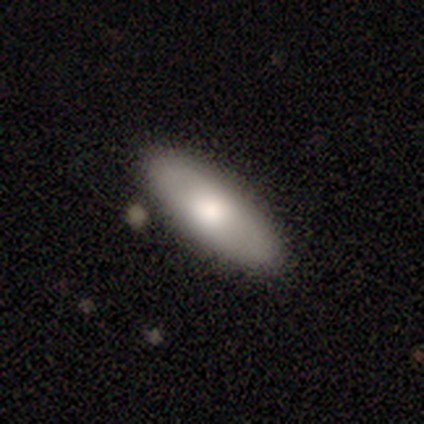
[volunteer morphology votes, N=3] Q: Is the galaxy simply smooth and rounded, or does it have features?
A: smooth — 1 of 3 (33%, tied with featured or disk and star or artifact).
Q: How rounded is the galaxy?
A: in between — 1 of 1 (100%).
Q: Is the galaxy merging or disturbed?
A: none — 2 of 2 (100%).